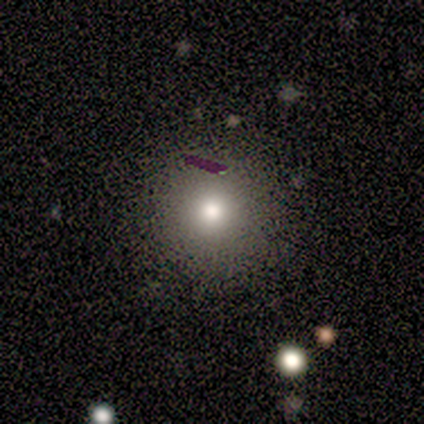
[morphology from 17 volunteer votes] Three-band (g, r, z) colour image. It shows a smooth galaxy with no disk features (65%) that is round (100%). Merging: none (100%).